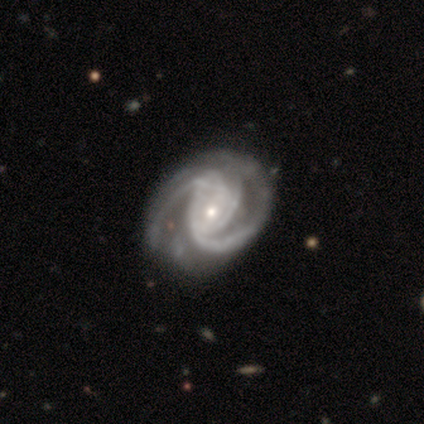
Overall: featured or disk (100%). Edge-on disk: no (100%). Bar: strong (33%, tied with weak and no). Spiral arms: yes (67%; no 33%). Spiral arm count: 2 (100%). Spiral winding: tight (100%). Bulge size: small (67%; dominant 33%). Merging: none (67%; minor disturbance 33%).